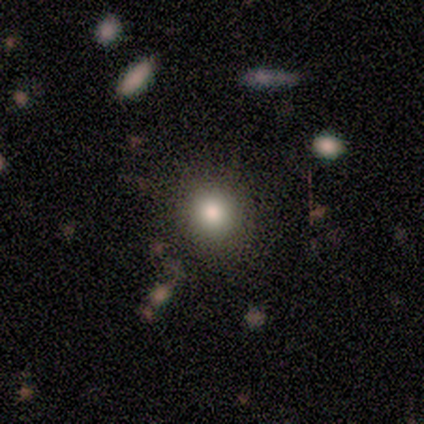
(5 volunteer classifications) Q: Smooth or featured?
A: smooth (100%)
Q: How rounded?
A: round (80%); runner-up: in between (20%)
Q: Merging?
A: none (80%); runner-up: minor disturbance (20%)